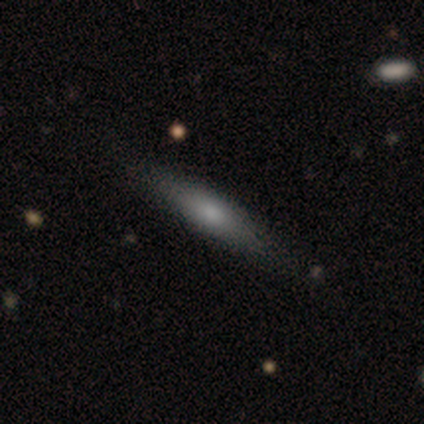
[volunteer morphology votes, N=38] type=smooth (61%); roundness=cigar-shaped (83%); merging=none (89%).